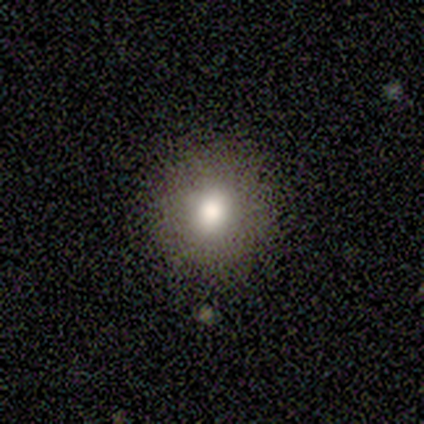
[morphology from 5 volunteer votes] smooth 100%, featured or disk 0%, star or artifact 0%. Down the decision tree: how rounded — round (80%); merging — none (60%).